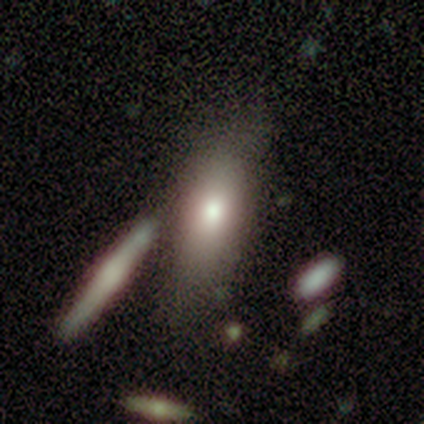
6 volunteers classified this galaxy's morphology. Smooth or featured? smooth (50%, tied with featured or disk)
How rounded? in between (100%)
Merging? none (33%, tied with merger)